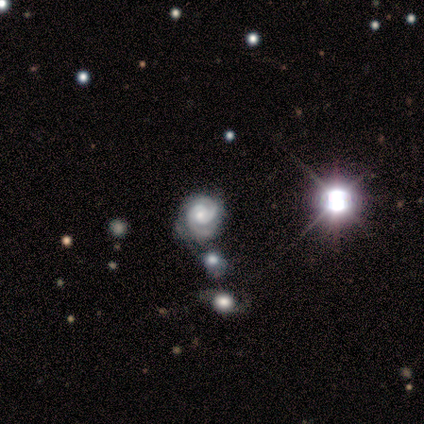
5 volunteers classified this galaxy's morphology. Smooth or featured?
  - featured or disk: 100% *
  - smooth: 0%
  - star or artifact: 0%
Edge-on disk?
  - no: 80% *
  - yes: 20%
Bar?
  - no: 100% *
  - strong: 0%
  - weak: 0%
Spiral arms?
  - yes: 100% *
  - no: 0%
Spiral winding?
  - tight: 75% *
  - medium: 25%
  - loose: 0%
Spiral arm count?
  - 2: 100% *
  - 1: 0%
  - 3: 0%
  - 4: 0%
  - more than 4: 0%
  - can't tell: 0%
Bulge size?
  - small: 75% *
  - moderate: 25%
  - dominant: 0%
  - large: 0%
  - none: 0%
Merging?
  - none: 60% *
  - merger: 40%
  - minor disturbance: 0%
  - major disturbance: 0%